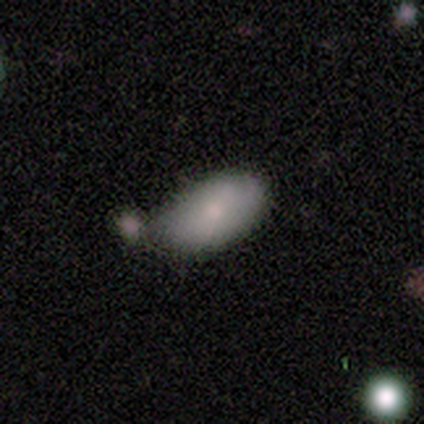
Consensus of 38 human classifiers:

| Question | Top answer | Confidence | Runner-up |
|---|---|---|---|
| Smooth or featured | smooth | 82% | featured or disk (13%) |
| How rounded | in between | 100% | — |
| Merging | none | 47% | minor disturbance (28%) |